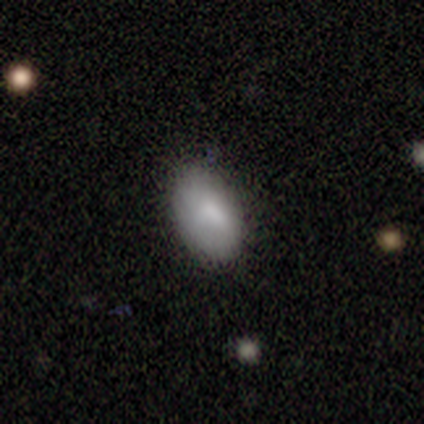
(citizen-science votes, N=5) Overall: smooth (80%). How rounded: in between (100%). Merging: none (80%).